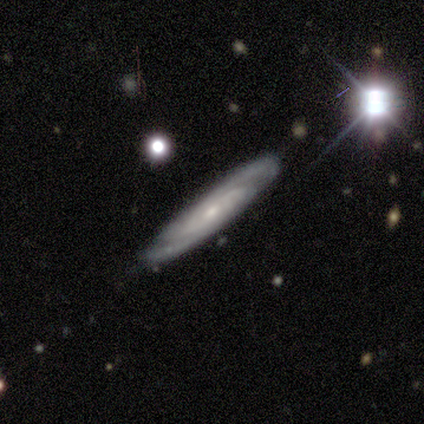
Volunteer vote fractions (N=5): A featured or disk galaxy (100%) with no bar (75%), 2 (75%) tight (100%) spiral arms (100%) and a small central bulge (75%).

Vote fractions:
- Smooth or featured? featured or disk: 100% / smooth: 0% / star or artifact: 0%
- Edge-on disk? no: 80% / yes: 20%
- Bar? no: 75% / weak: 25% / strong: 0%
- Spiral arms? yes: 100% / no: 0%
- Spiral winding? tight: 100% / medium: 0% / loose: 0%
- Spiral arm count? 2: 75% / can't tell: 25% / 1: 0% / 3: 0% / 4: 0% / more than 4: 0%
- Bulge size? small: 75% / moderate: 25% / dominant: 0% / large: 0% / none: 0%
- Merging? minor disturbance: 60% / none: 40% / major disturbance: 0% / merger: 0%